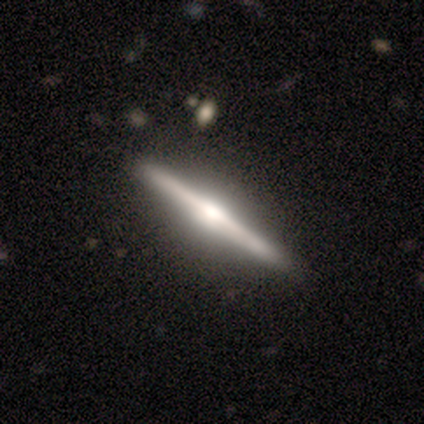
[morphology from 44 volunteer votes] Smooth or featured? featured or disk (91%)
Edge-on disk? yes (100%)
Edge-on bulge? rounded (90%)
Merging? none (93%)